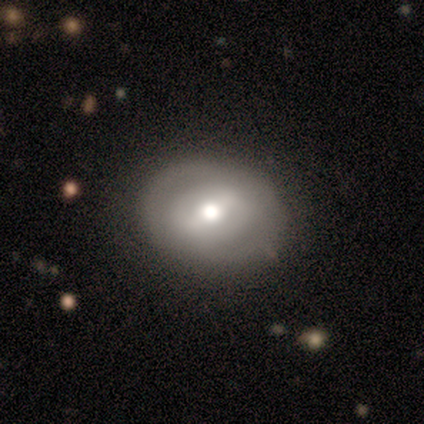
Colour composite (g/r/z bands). It shows a featured or disk galaxy (60%) with a weak bar (67%), no spiral arms (67%) and a moderate central bulge (100%). Merging: none (100%).